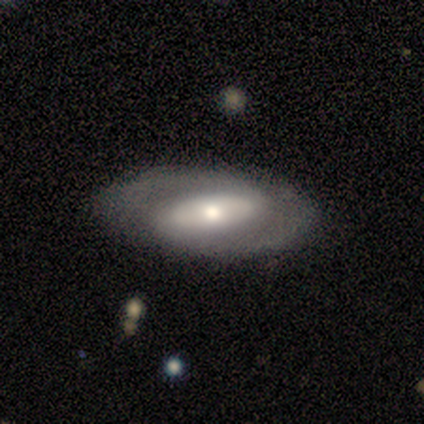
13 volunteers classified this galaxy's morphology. This appears to be a smooth galaxy with no disk features (62%) that is in between round and cigar-shaped (100%). Merging: none (92%).